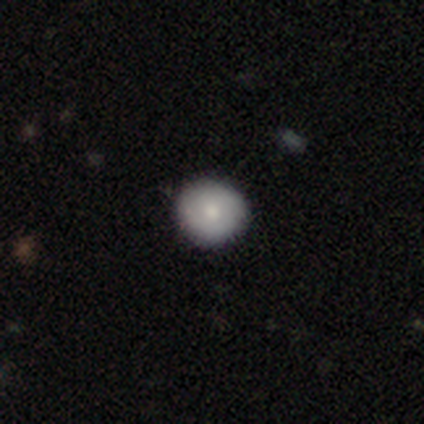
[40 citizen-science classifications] Overall: smooth (75%). How rounded: round (90%). Merging: none (76%).